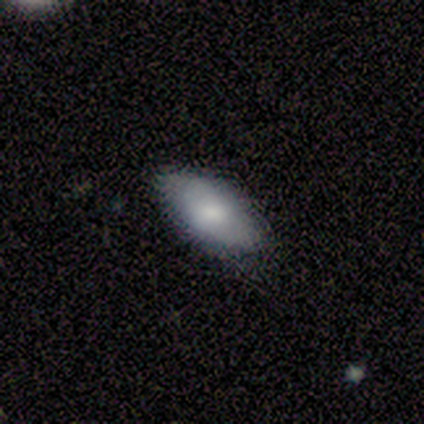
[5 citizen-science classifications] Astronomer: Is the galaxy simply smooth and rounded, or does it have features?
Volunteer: featured or disk — 60% (runner-up: smooth, 40%).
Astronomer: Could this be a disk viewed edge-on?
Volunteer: no — 100%.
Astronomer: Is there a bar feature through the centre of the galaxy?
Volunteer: no — 100%.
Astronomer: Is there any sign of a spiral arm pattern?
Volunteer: no — 67%.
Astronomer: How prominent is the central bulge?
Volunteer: small — 67%.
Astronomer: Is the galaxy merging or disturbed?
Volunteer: none — 80%.